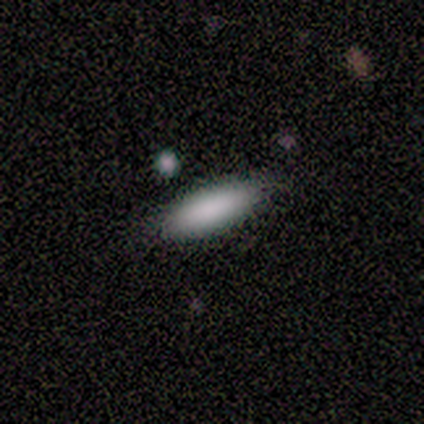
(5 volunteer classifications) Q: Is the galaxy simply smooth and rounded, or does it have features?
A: smooth — 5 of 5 (100%).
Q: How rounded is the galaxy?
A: in between — 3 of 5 (60%).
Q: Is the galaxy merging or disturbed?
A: none — 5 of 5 (100%).